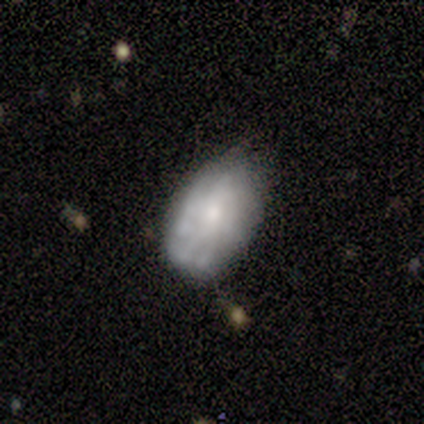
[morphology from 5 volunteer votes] featured or disk 60%, smooth 40%, star or artifact 0%. Down the decision tree: edge-on disk — no (100%); bar — no (100%); spiral arms — yes (67%); spiral arm count — more than 4 (50%, tied with can't tell); spiral winding — tight (50%, tied with medium); bulge size — moderate (67%); merging — none (60%).